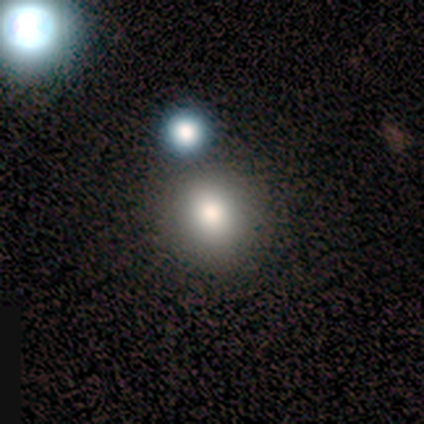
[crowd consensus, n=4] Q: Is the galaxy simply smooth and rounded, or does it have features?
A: smooth — 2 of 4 (50%, tied with star or artifact).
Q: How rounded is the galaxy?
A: round — 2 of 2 (100%).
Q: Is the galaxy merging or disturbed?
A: none — 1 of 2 (50%, tied with merger).